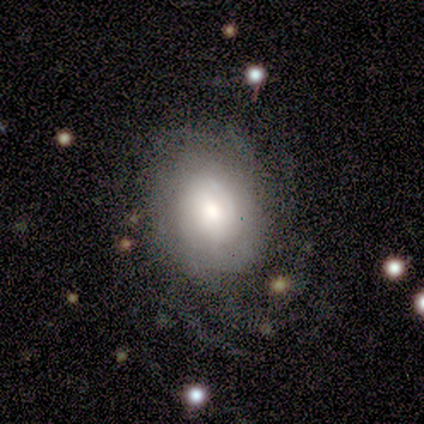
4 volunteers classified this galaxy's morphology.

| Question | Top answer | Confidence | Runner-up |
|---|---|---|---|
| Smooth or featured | featured or disk | 75% | smooth (25%) |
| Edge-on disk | no | 100% | — |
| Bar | no | 67% | strong (33%) |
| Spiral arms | no | 67% | yes (33%) |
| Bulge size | large | 33% | tied: moderate (33%), none (33%) |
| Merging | none | 50% | tied: minor disturbance (50%) |